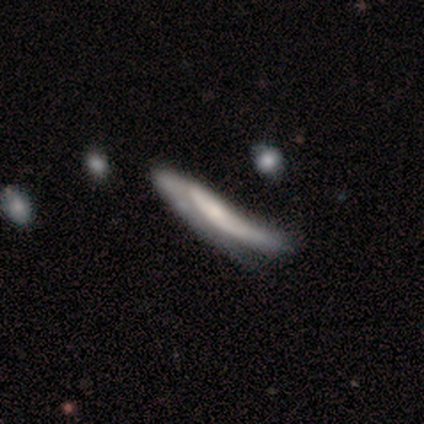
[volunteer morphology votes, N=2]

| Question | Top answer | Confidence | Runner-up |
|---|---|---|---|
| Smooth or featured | smooth | 100% | — |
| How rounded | cigar-shaped | 100% | — |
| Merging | minor disturbance | 50% | tied: major disturbance (50%) |